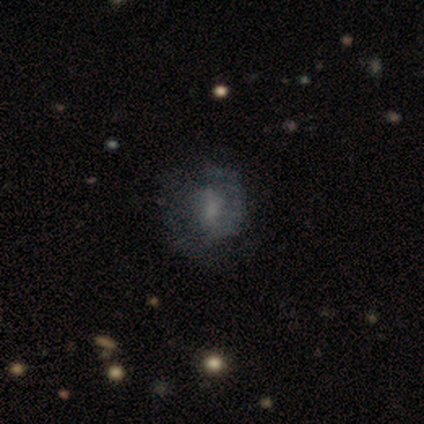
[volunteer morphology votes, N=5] This appears to be a smooth galaxy with no disk features (40%, tied with featured or disk) that is round (50%, tied with in between). Merging: none (50%).